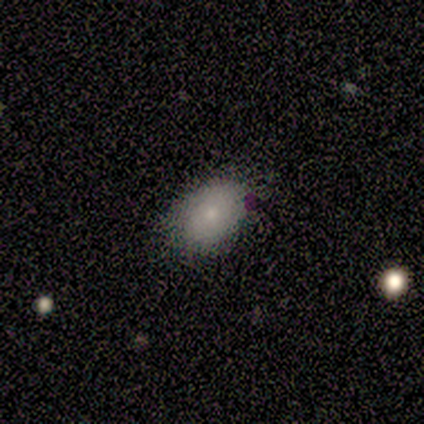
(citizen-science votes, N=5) Smooth or featured? 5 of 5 (100%) said smooth. How rounded? 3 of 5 (60%) said in between. Merging? 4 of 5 (80%) said none.